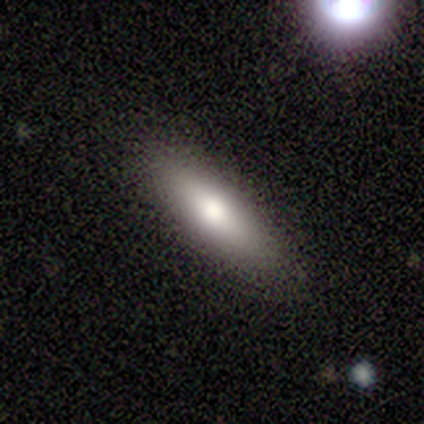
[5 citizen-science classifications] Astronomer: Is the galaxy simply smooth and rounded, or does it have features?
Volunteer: smooth — 80%.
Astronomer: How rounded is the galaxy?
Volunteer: in between — 75%.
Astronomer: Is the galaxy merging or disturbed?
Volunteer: none — 75%.